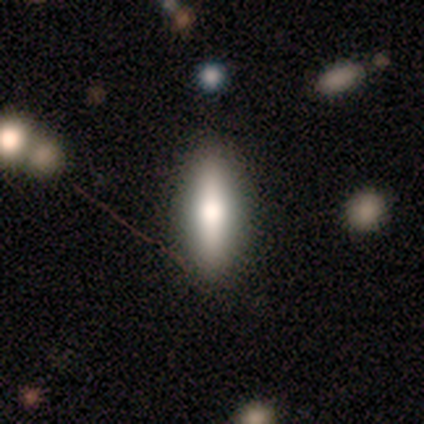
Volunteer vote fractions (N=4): Smooth or featured? smooth (75%)
How rounded? cigar-shaped (67%)
Merging? none (67%)